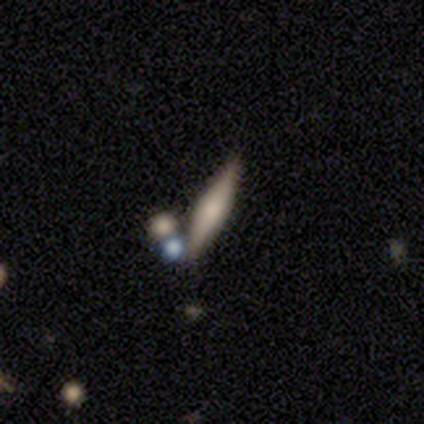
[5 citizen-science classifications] smooth_or_featured: smooth (p=0.80) [alt: featured or disk p=0.20]
how_rounded: in between (p=0.50) [tied with: cigar-shaped p=0.50]
merging: none (p=1.00)